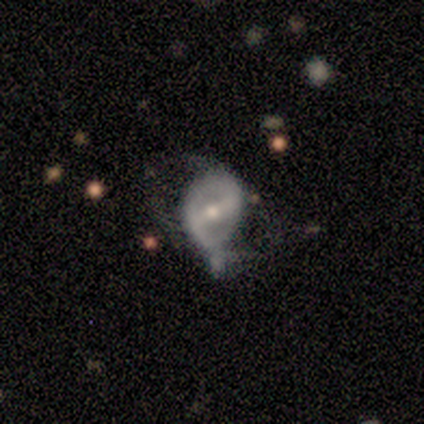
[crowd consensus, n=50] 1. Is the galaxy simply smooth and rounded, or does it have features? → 72% featured or disk, 22% smooth, 6% star or artifact.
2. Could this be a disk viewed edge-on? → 89% no, 11% yes.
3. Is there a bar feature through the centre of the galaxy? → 56% strong, 28% weak, 16% no.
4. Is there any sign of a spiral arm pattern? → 50% yes (tied), 50% no (tied).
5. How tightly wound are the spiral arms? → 44% loose, 31% tight, 25% medium.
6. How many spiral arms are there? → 50% 2, 44% can't tell, 6% 3, 0% 1, 0% 4, 0% more than 4.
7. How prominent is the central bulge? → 53% small, 44% moderate, 3% large, 0% dominant, 0% none.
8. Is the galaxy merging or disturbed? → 40% major disturbance, 34% minor disturbance, 17% none, 9% merger.